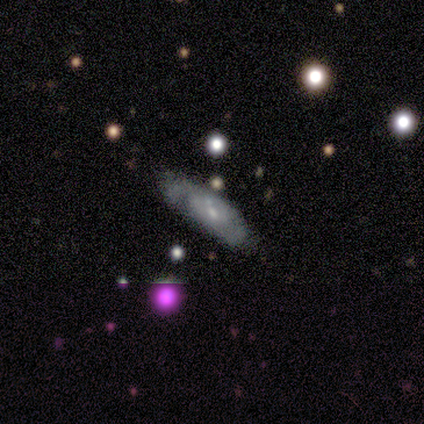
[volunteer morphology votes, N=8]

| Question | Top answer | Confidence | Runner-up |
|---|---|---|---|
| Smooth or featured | featured or disk | 62% | smooth (25%) |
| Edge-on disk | no | 100% | — |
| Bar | no | 80% | weak (20%) |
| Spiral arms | no | 60% | yes (40%) |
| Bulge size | small | 60% | moderate (20%) |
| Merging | none | 43% | tied: major disturbance (43%) |